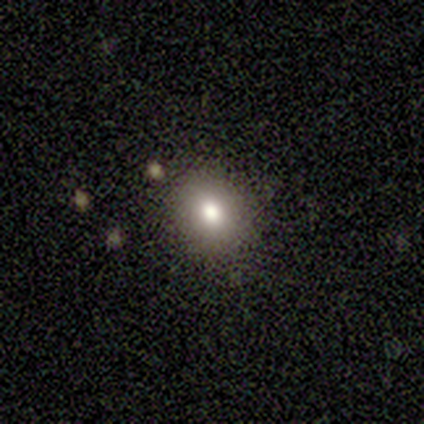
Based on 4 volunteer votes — smooth-or-featured: smooth: 100% | featured or disk: 0% | star or artifact: 0%
  how-rounded: round: 100% | in between: 0% | cigar-shaped: 0%
  merging: none: 100% | minor disturbance: 0% | major disturbance: 0% | merger: 0%